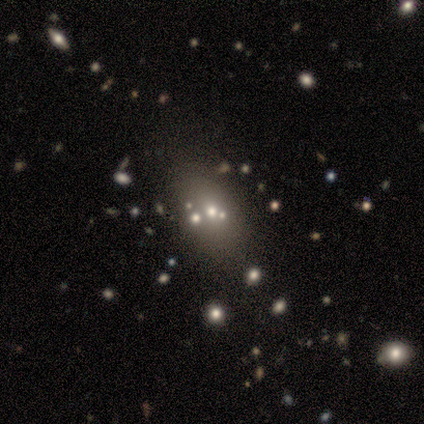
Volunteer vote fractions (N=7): This appears to be a featured or disk galaxy (57%) with no bar (100%), no spiral arms (100%) and a moderate central bulge (50%, tied with small). Merging: none (80%).